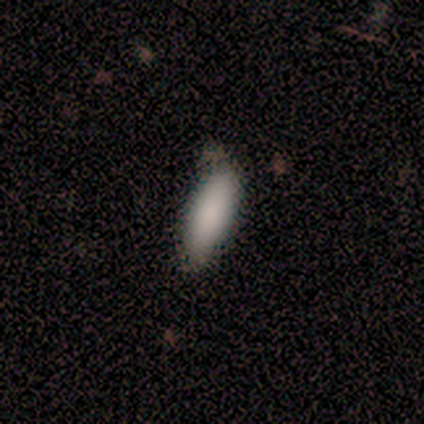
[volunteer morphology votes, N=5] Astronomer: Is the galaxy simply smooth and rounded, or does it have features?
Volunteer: smooth — 100%.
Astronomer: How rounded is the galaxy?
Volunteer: in between — 60% (runner-up: cigar-shaped, 40%).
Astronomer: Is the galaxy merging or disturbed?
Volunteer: none — 40%, tied with minor disturbance at 40%.